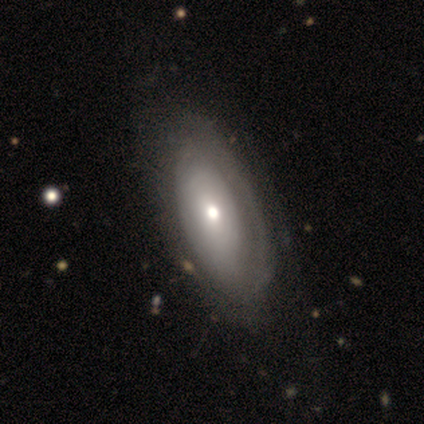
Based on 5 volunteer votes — Smooth or featured?
  - smooth: 80% *
  - featured or disk: 20%
  - star or artifact: 0%
How rounded?
  - in between: 75% *
  - cigar-shaped: 25%
  - round: 0%
Merging?
  - none: 100% *
  - minor disturbance: 0%
  - major disturbance: 0%
  - merger: 0%